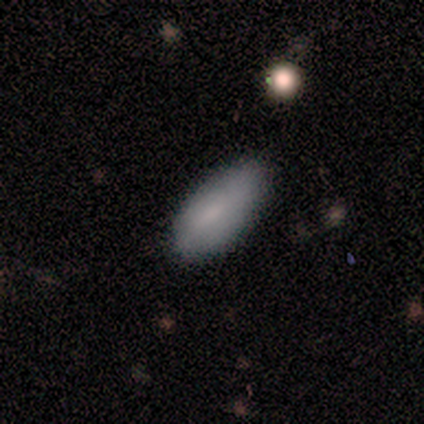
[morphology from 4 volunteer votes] smooth 75%, featured or disk 25%, star or artifact 0%. Down the decision tree: how rounded — in between (67%); merging — none (100%).